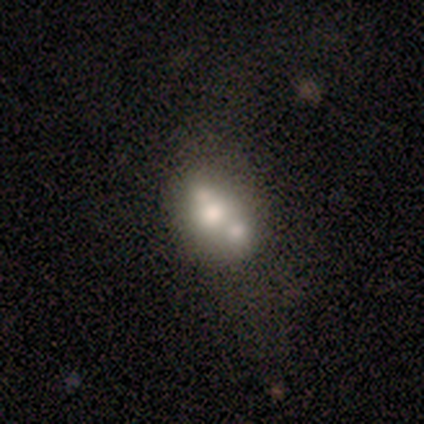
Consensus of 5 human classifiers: Smooth or featured? smooth (60%)
How rounded? in between (67%)
Merging? merger (60%)